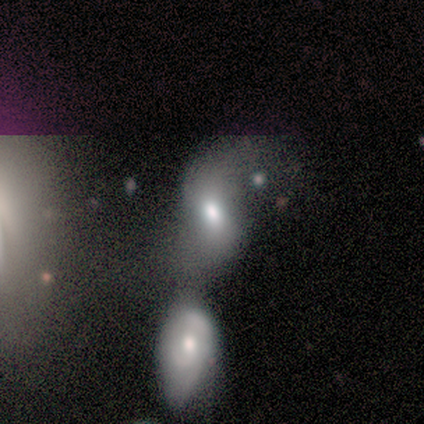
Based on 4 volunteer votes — This appears to be a smooth galaxy with no disk features (50%, tied with star or artifact) that is in between round and cigar-shaped (100%). Merging: minor disturbance (50%, tied with merger).